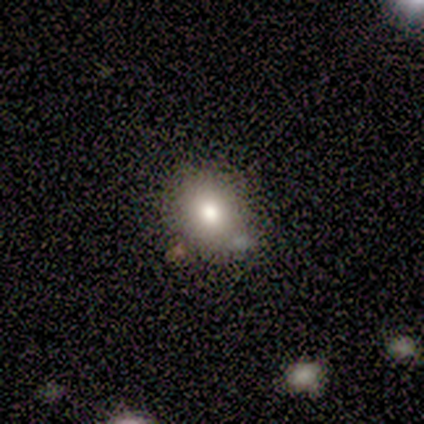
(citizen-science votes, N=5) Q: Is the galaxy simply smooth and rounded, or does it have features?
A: smooth — 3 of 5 (60%).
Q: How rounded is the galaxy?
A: in between — 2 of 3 (67%).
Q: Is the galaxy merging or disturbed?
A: none — 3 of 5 (60%).